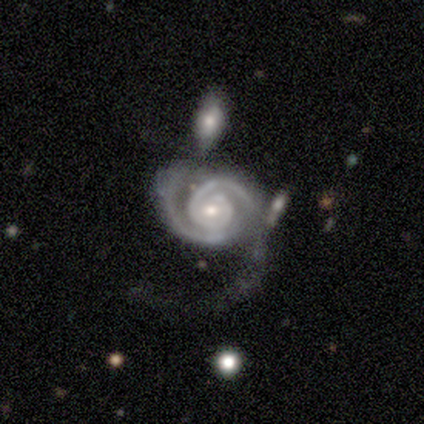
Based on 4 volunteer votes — Morphology: type=featured or disk (75%); edge-on=no (100%); bar=no (67%); spiral arms=yes (100%); winding=tight (67%); arm count=2 (67%); bulge=moderate (100%); merging=major disturbance (67%).